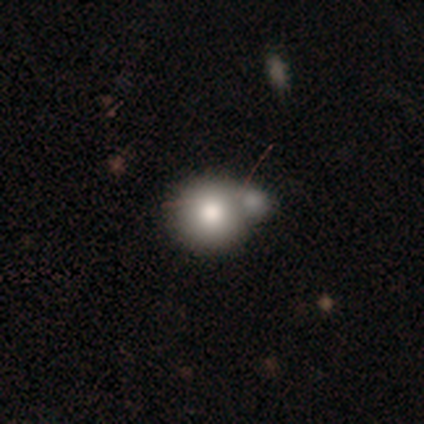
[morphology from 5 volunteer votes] A smooth galaxy with no disk features (80%) that is round (100%). Merging: merger (80%).